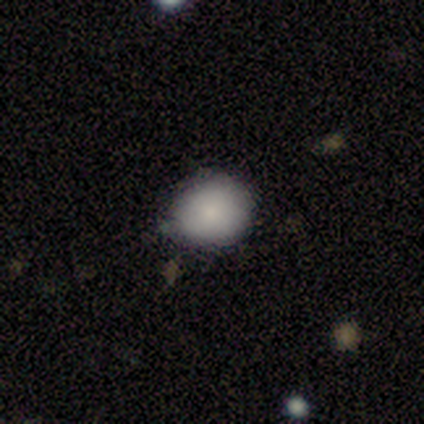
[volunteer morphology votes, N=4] smooth 75%, featured or disk 25%, star or artifact 0%. Down the decision tree: how rounded — round (67%); merging — minor disturbance (75%).